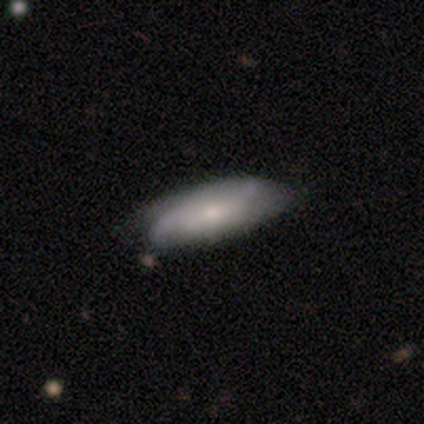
Smooth or featured?
  - smooth: 46% * (tied)
  - featured or disk: 46% * (tied)
  - star or artifact: 8%
How rounded?
  - in between: 61% *
  - cigar-shaped: 39%
  - round: 0%
Merging?
  - none: 58% *
  - minor disturbance: 36%
  - major disturbance: 6%
  - merger: 0%